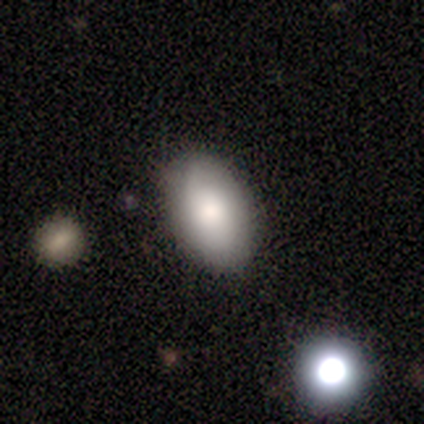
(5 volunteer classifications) Smooth or featured?
  - smooth: 100% *
  - featured or disk: 0%
  - star or artifact: 0%
How rounded?
  - in between: 100% *
  - round: 0%
  - cigar-shaped: 0%
Merging?
  - none: 60% *
  - minor disturbance: 40%
  - major disturbance: 0%
  - merger: 0%